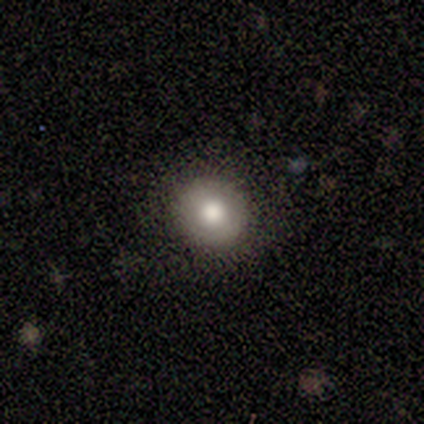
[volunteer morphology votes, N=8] Smooth or featured? 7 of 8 (88%) said smooth. How rounded? 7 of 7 (100%) said round. Merging? 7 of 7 (100%) said none.